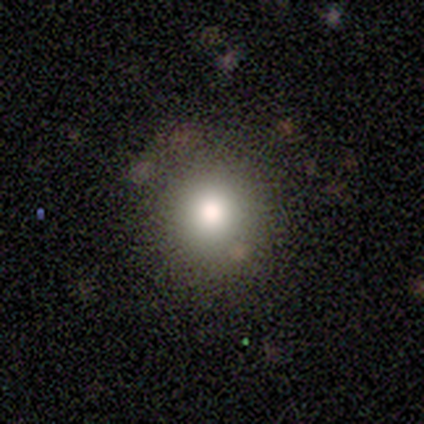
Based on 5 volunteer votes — Smooth or featured: smooth — 100%
How rounded: round — 100%
Merging: none — 100%